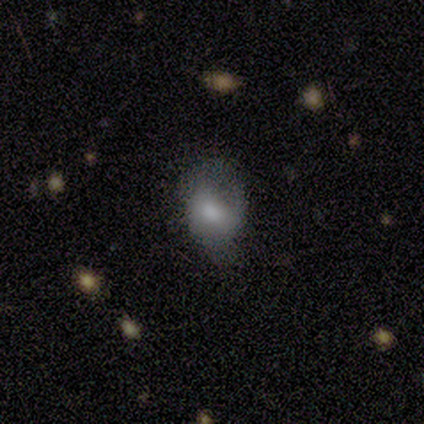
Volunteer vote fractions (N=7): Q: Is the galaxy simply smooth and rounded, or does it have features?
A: smooth — 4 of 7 (57%).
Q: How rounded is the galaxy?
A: in between — 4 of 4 (100%).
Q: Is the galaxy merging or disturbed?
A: minor disturbance — 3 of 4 (75%).